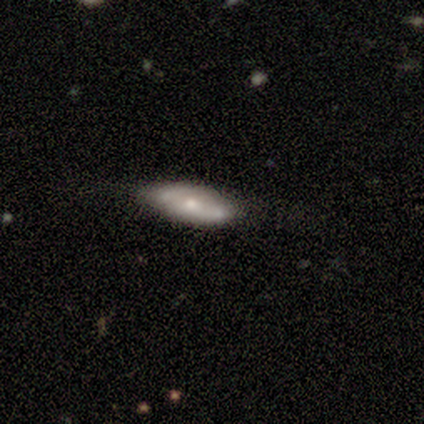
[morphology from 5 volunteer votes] type=smooth (80%); roundness=in between (50%, tied with cigar-shaped); merging=none (80%).